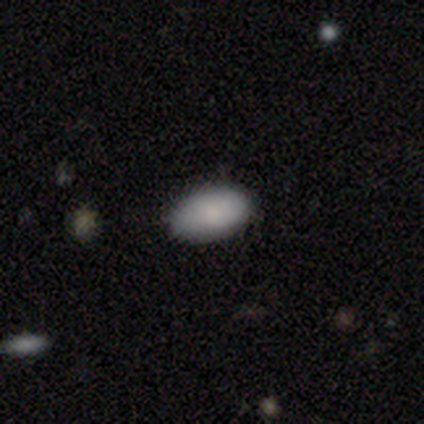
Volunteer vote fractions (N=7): This is clearly a smooth galaxy (86%). How rounded: clearly in between (100%). Merging: likely none (67%).